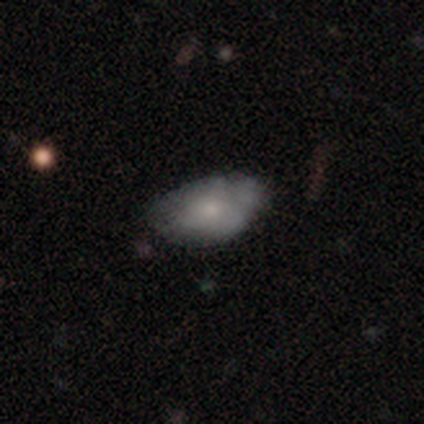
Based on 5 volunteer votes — Smooth or featured? 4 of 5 (80%) said smooth. How rounded? 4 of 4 (100%) said in between. Merging? 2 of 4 (50%, tied with minor disturbance) said none.